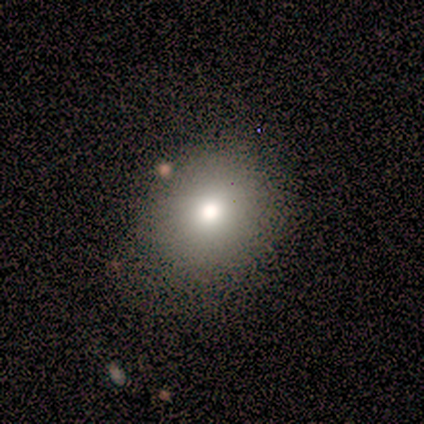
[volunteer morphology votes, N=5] This is clearly a smooth galaxy (100%). How rounded: clearly round (80%). Merging: clearly none (100%).